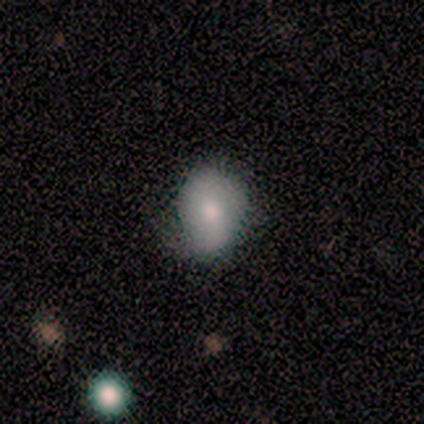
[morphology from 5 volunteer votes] Smooth or featured: smooth — 80% (star or artifact — 20%)
How rounded: round — 50% (tied with in between — 50%)
Merging: none — 50% (tied with minor disturbance — 50%)